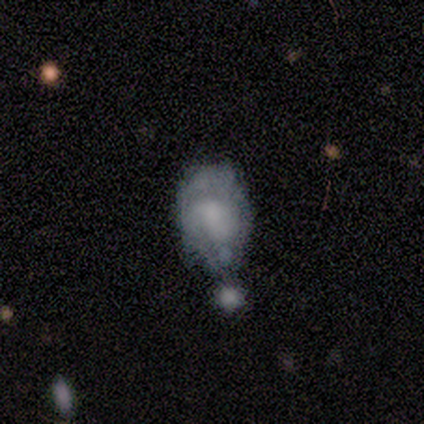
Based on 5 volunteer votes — smooth_or_featured: featured or disk (p=0.60) [alt: smooth p=0.40]
disk_edge_on: no (p=1.00)
bar: no (p=1.00)
has_spiral_arms: no (p=1.00)
bulge_size: dominant (p=0.33) [tied with: large p=0.33, none p=0.33]
merging: merger (p=0.40) [alt: none p=0.20]